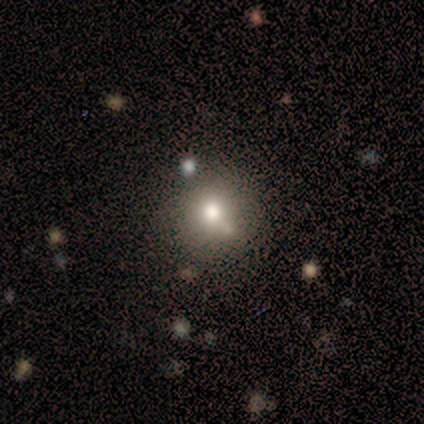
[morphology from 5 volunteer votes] This appears to be a smooth galaxy with no disk features (80%) that is round (75%). Merging: none (50%, tied with merger).